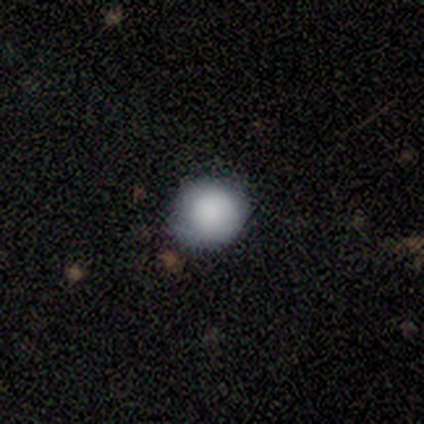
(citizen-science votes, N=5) Smooth or featured?
  - smooth: 100% *
  - featured or disk: 0%
  - star or artifact: 0%
How rounded?
  - round: 100% *
  - in between: 0%
  - cigar-shaped: 0%
Merging?
  - none: 80% *
  - minor disturbance: 20%
  - major disturbance: 0%
  - merger: 0%